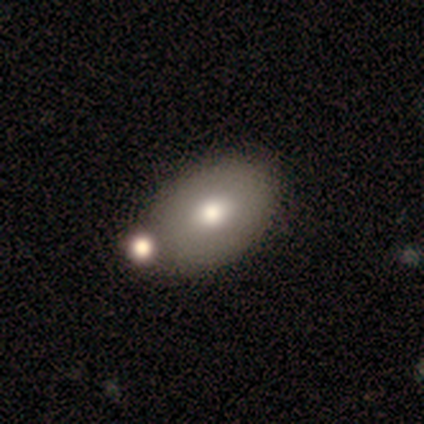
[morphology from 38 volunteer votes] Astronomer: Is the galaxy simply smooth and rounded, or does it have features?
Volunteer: smooth — 79%.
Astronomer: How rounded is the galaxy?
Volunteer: in between — 80%.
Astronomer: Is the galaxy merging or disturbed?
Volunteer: none — 49% (runner-up: merger, 24%).